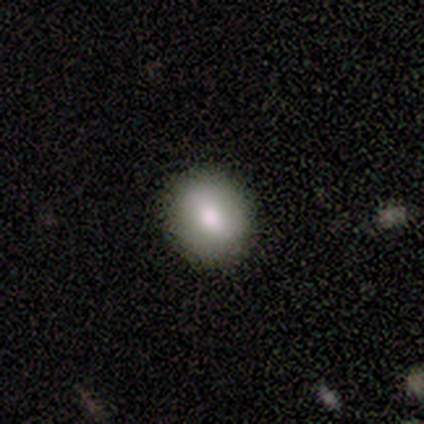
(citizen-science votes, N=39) Overall: smooth (82%). How rounded: round (69%; in between 31%). Merging: none (100%).